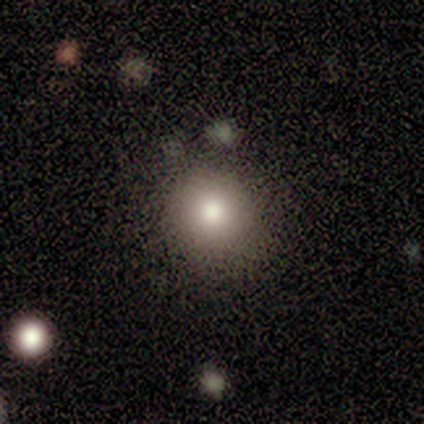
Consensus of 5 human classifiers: Volunteers were most divided on "merging": none: 80%, minor disturbance: 20%, major disturbance: 0%, merger: 0%. More confident: smooth or featured — smooth (100%); how rounded — round (100%).